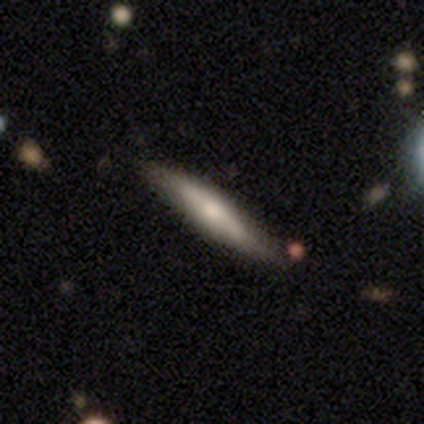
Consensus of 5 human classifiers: Q: Smooth or featured?
A: smooth (60%); runner-up: featured or disk (40%)
Q: How rounded?
A: in between (67%); runner-up: cigar-shaped (33%)
Q: Merging?
A: none (80%); runner-up: minor disturbance (20%)